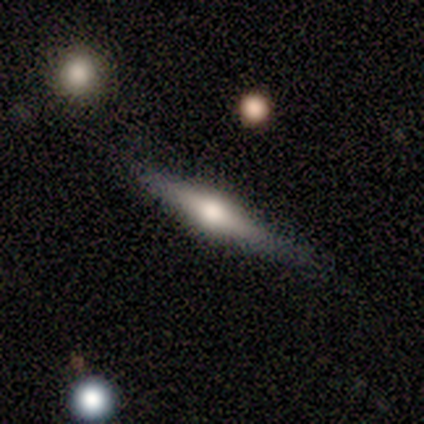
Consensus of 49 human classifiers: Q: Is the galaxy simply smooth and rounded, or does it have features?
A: featured or disk — 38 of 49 (78%).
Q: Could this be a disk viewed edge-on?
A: yes — 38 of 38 (100%).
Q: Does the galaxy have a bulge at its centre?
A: rounded — 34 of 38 (89%).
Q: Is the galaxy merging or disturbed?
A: none — 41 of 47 (87%).